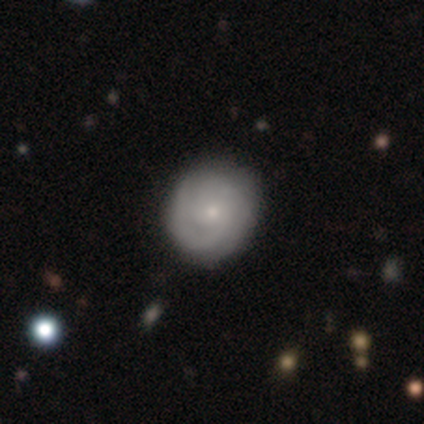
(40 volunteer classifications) Smooth or featured: featured or disk — 60% (smooth — 38%)
Edge-on disk: no — 100%
Bar: no — 88% (weak — 12%)
Spiral arms: yes — 88% (no — 12%)
Spiral winding: tight — 71% (medium — 19%)
Spiral arm count: 2 — 57% (can't tell — 29%)
Bulge size: small — 79% (moderate — 21%)
Merging: none — 64% (major disturbance — 5%)